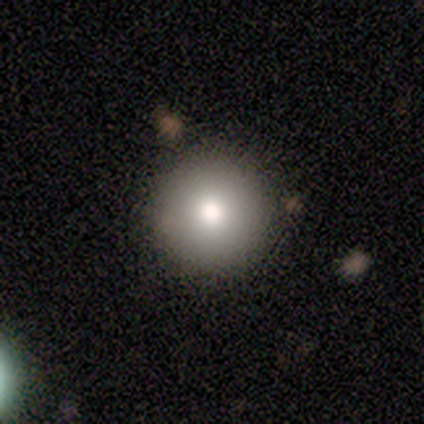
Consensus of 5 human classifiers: Smooth or featured?
  - smooth: 40% * (tied)
  - featured or disk: 40% * (tied)
  - star or artifact: 20%
How rounded?
  - round: 100% *
  - in between: 0%
  - cigar-shaped: 0%
Merging?
  - none: 100% *
  - minor disturbance: 0%
  - major disturbance: 0%
  - merger: 0%